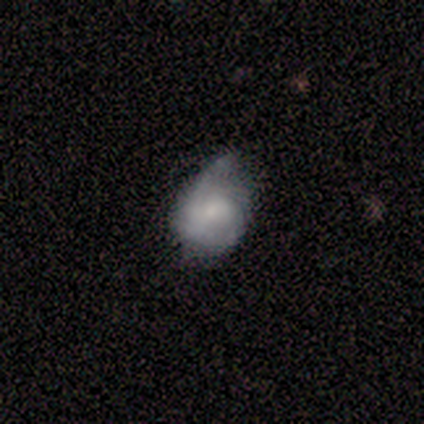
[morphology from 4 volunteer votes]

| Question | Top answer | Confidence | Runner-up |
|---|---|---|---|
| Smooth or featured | smooth | 75% | featured or disk (25%) |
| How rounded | in between | 100% | — |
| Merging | minor disturbance | 100% | — |